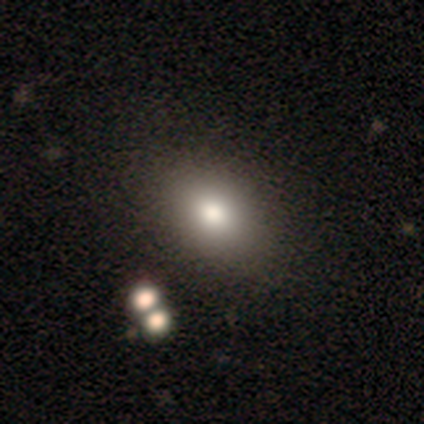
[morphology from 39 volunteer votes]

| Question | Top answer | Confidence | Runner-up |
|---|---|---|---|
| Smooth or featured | smooth | 72% | featured or disk (23%) |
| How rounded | in between | 89% | round (11%) |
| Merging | none | 65% | merger (16%) |